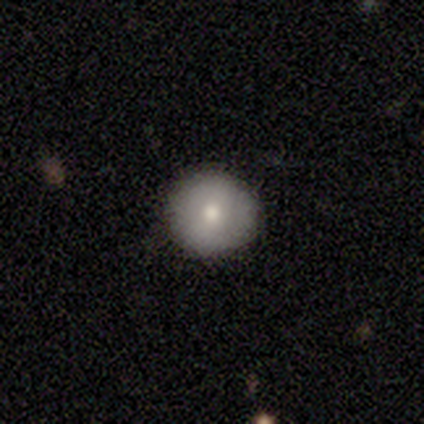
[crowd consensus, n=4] Smooth or featured? 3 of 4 (75%) said smooth. How rounded? 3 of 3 (100%) said round. Merging? 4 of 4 (100%) said none.